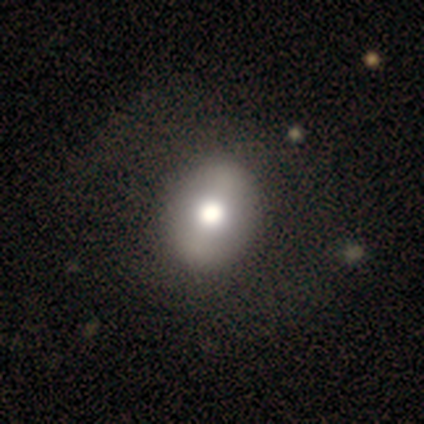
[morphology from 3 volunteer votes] Volunteers were most divided on "how rounded" (2-way tie): round: 50%, in between: 50%, cigar-shaped: 0%. More confident: merging — none (100%); smooth or featured — smooth (67%).